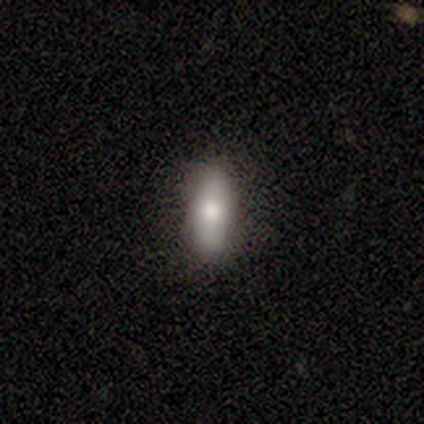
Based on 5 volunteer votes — Q: Smooth or featured?
A: smooth (80%); runner-up: featured or disk (20%)
Q: How rounded?
A: in between (75%); runner-up: cigar-shaped (25%)
Q: Merging?
A: none (100%)